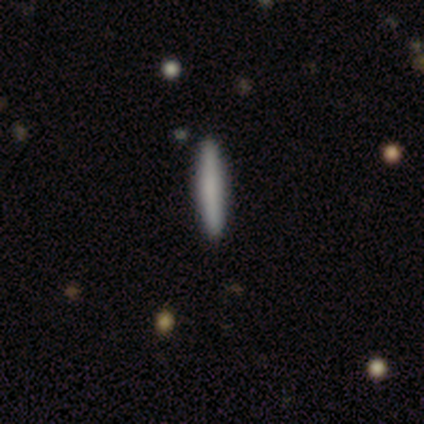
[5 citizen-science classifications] A smooth galaxy with no disk features (80%) that is cigar-shaped (100%). Merging: none (100%).